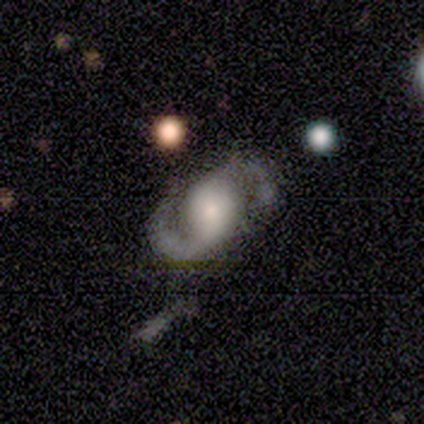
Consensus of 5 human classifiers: Smooth or featured? 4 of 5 (80%) said featured or disk. Edge-on disk? 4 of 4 (100%) said no. Bar? 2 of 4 (50%) said no. Spiral arms? 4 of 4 (100%) said yes. Spiral winding? 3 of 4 (75%) said medium. Spiral arm count? 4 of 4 (100%) said 2. Bulge size? 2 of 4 (50%) said large. Merging? 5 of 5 (100%) said none.